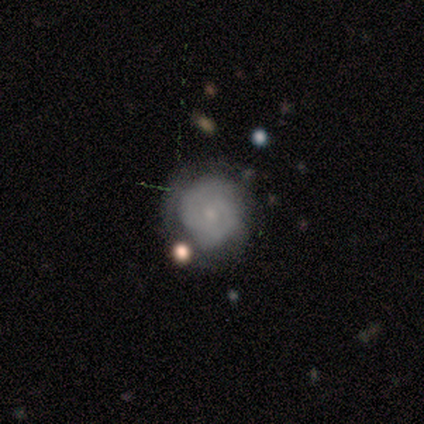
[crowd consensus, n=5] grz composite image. It shows a featured or disk galaxy (60%) with no bar (100%), 2 (100%) tight (50%, tied with medium) spiral arms (67%) and a small central bulge (67%). Merging: none (80%).